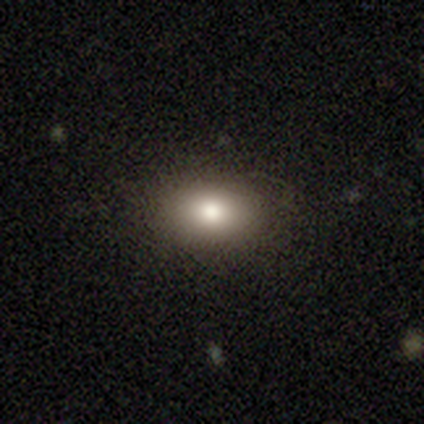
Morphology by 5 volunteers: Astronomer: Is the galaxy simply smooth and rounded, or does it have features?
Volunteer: smooth — 100%.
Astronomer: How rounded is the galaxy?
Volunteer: in between — 100%.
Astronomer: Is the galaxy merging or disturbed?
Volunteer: none — 100%.